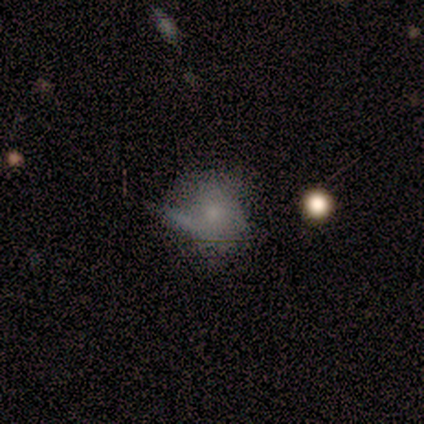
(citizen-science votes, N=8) This appears to be a smooth galaxy with no disk features (88%) that is round (71%). Merging: minor disturbance (43%, tied with major disturbance).